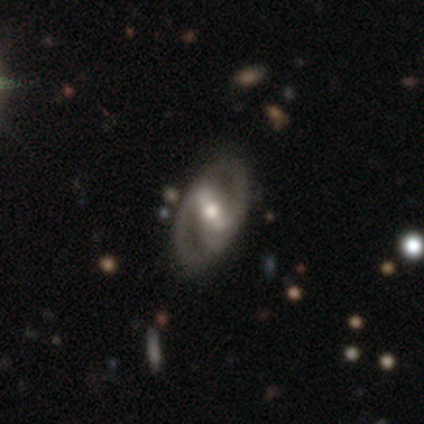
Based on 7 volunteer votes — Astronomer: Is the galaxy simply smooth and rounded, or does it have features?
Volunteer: featured or disk — 86%.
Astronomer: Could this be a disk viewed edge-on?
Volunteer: no — 100%.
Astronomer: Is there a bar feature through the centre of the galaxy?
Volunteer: weak — 67%.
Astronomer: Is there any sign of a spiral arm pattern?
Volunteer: yes — 83%.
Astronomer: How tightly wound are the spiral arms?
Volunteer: medium — 60% (runner-up: loose, 40%).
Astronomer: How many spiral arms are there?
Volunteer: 2 — 60% (runner-up: can't tell, 40%).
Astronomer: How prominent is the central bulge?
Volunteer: moderate — 100%.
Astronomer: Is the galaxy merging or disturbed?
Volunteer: none — 86%.